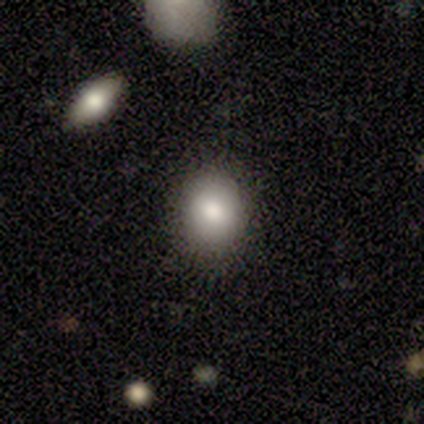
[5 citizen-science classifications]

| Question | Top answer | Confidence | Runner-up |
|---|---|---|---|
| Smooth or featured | smooth | 60% | featured or disk (40%) |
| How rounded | round | 67% | in between (33%) |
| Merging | none | 100% | — |